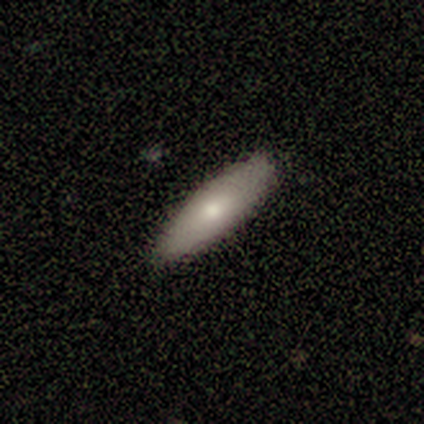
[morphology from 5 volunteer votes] This is clearly a smooth galaxy (80%). How rounded: likely cigar-shaped (75%). Merging: clearly none (100%).